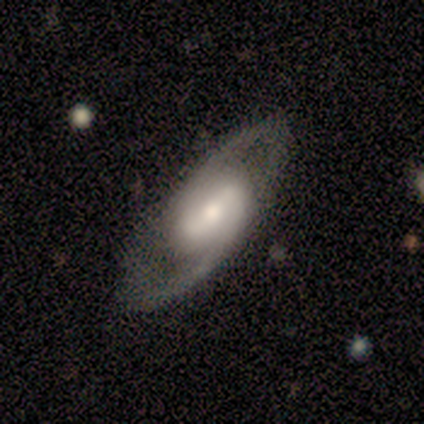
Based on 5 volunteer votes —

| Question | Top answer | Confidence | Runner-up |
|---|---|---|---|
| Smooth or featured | featured or disk | 100% | — |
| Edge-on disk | no | 100% | — |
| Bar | strong | 60% | weak (40%) |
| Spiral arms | yes | 100% | — |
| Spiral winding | medium | 80% | loose (20%) |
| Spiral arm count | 2 | 80% | 1 (20%) |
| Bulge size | moderate | 40% | tied: small (40%) |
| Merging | none | 80% | minor disturbance (20%) |